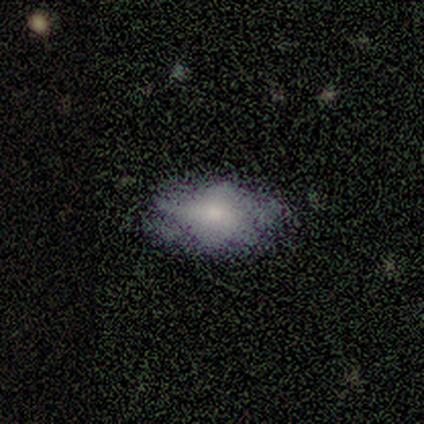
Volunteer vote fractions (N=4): Smooth or featured? smooth (75%)
How rounded? in between (100%)
Merging? none (100%)